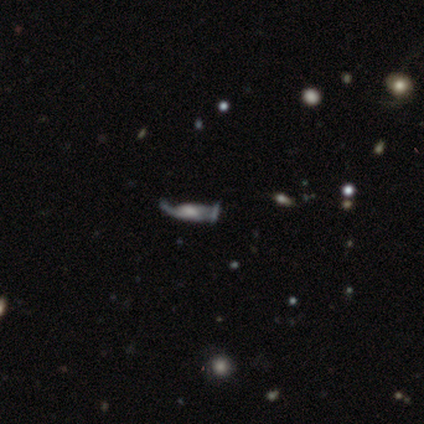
smooth_or_featured: featured or disk (p=0.47) [alt: star or artifact p=0.35]
disk_edge_on: no (p=0.88) [alt: yes p=0.12]
bar: no (p=0.71) [alt: weak p=0.29]
has_spiral_arms: no (p=0.71) [alt: yes p=0.29]
bulge_size: moderate (p=0.43) [alt: large p=0.29]
merging: none (p=0.45) [alt: major disturbance p=0.36]